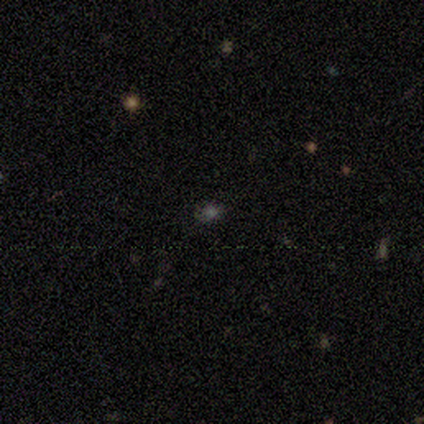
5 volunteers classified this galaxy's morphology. Volunteers were most divided on "smooth or featured": smooth: 60%, featured or disk: 20%, star or artifact: 20%. More confident: how rounded — round (100%); merging — none (100%).